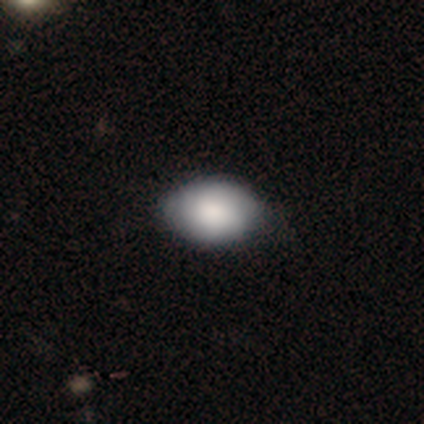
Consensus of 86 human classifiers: This appears to be a smooth galaxy with no disk features (78%) that is in between round and cigar-shaped (82%). Merging: none (78%).